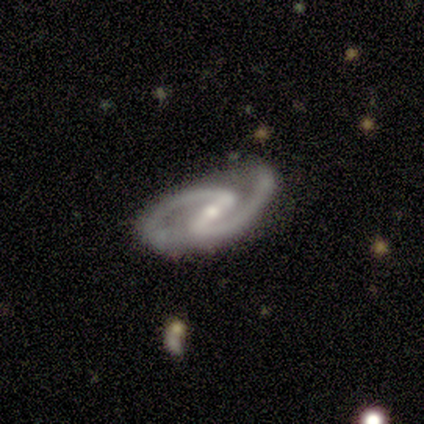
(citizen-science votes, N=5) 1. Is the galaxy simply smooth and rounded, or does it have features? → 100% featured or disk, 0% smooth, 0% star or artifact.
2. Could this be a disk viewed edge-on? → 100% no, 0% yes.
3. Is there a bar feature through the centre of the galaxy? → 60% strong, 20% weak, 20% no.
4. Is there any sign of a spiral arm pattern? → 100% yes, 0% no.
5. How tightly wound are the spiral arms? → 60% medium, 40% tight, 0% loose.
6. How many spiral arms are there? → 100% 2, 0% 1, 0% 3, 0% 4, 0% more than 4, 0% can't tell.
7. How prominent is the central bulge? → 60% moderate, 40% small, 0% dominant, 0% large, 0% none.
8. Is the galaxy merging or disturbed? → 80% none, 20% minor disturbance, 0% major disturbance, 0% merger.